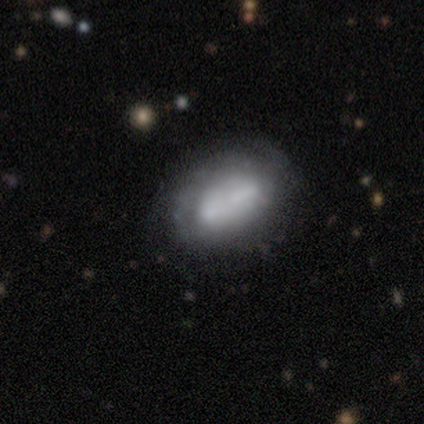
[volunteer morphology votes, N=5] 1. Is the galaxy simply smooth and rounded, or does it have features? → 60% smooth, 40% featured or disk, 0% star or artifact.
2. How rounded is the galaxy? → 100% in between, 0% round, 0% cigar-shaped.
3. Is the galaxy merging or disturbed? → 60% merger, 20% none, 20% minor disturbance, 0% major disturbance.